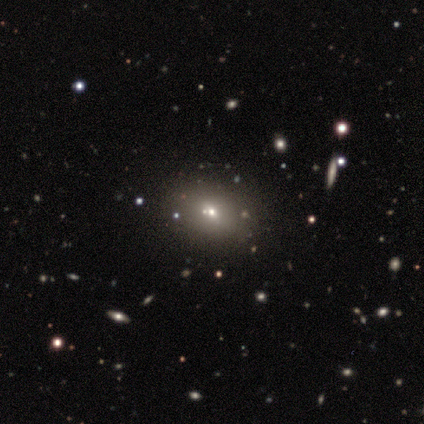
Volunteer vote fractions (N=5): Overall: smooth (60%; star or artifact 40%). How rounded: in between (67%; round 33%). Merging: none (100%).